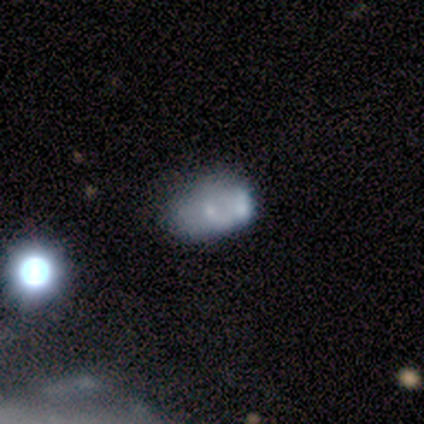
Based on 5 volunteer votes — A featured or disk galaxy (60%) with no bar (100%), no spiral arms (100%) and a small central bulge (100%). Merging: minor disturbance (40%, tied with merger).